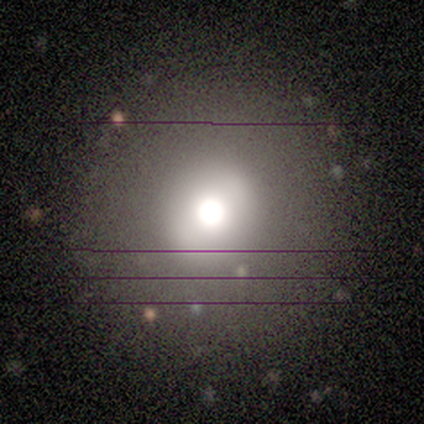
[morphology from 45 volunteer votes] A smooth galaxy with no disk features (49%) that is round (86%).

Vote fractions:
- Smooth or featured? smooth: 49% / star or artifact: 29% / featured or disk: 22%
- How rounded? round: 86% / in between: 14% / cigar-shaped: 0%
- Merging? none: 91% / minor disturbance: 9% / major disturbance: 0% / merger: 0%